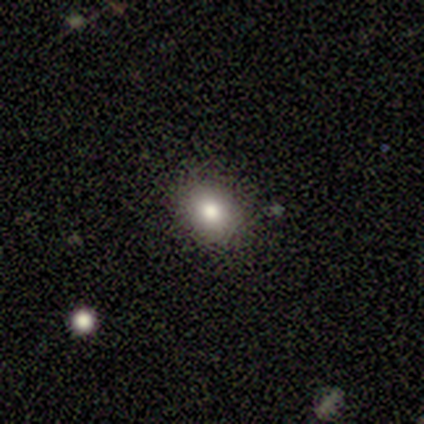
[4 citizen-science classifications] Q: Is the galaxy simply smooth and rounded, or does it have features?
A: smooth — 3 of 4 (75%).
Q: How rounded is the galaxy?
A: in between — 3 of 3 (100%).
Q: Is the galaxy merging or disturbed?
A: none — 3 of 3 (100%).